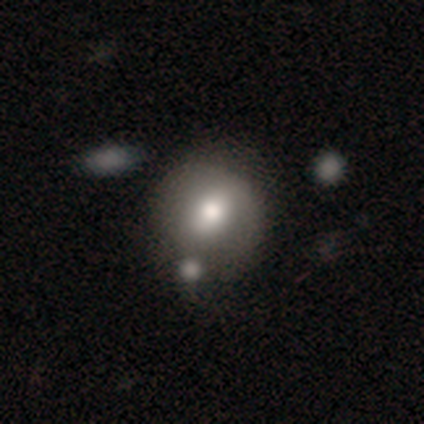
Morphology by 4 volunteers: Smooth or featured?
  - smooth: 50% * (tied)
  - star or artifact: 50% * (tied)
  - featured or disk: 0%
How rounded?
  - round: 100% *
  - in between: 0%
  - cigar-shaped: 0%
Merging?
  - none: 50% * (tied)
  - merger: 50% * (tied)
  - minor disturbance: 0%
  - major disturbance: 0%